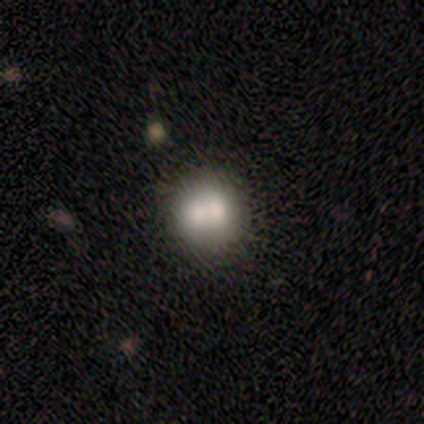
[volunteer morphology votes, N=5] Q: Smooth or featured?
A: smooth (40%); tied with: featured or disk (40%)
Q: How rounded?
A: round (100%)
Q: Merging?
A: merger (50%); runner-up: none (25%)